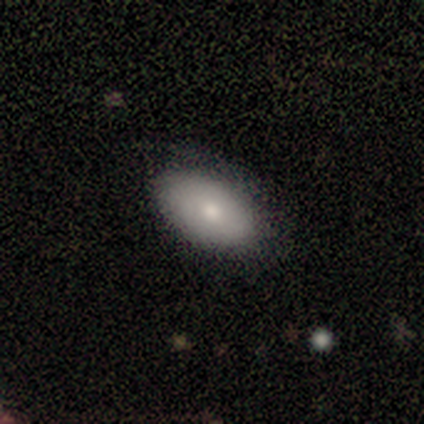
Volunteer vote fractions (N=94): smooth 71%, featured or disk 21%, star or artifact 7%. Down the decision tree: how rounded — in between (94%); merging — none (70%).